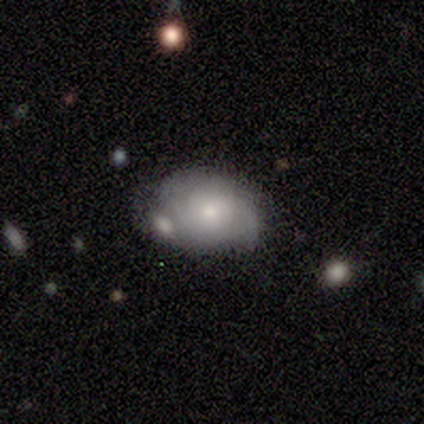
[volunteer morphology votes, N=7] smooth_or_featured: smooth (p=0.57) [alt: featured or disk p=0.43]
how_rounded: in between (p=0.75) [alt: round p=0.25]
merging: none (p=0.43) [tied with: merger p=0.43]